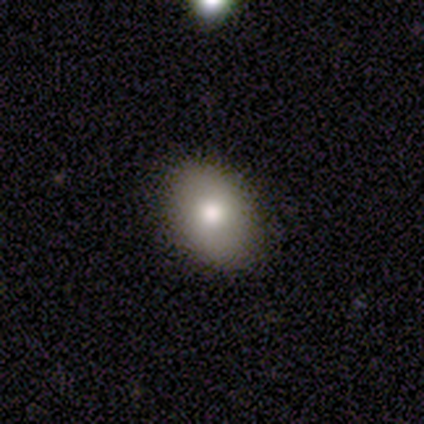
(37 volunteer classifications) Smooth or featured?
  - smooth: 86% *
  - star or artifact: 8%
  - featured or disk: 5%
How rounded?
  - in between: 75% *
  - round: 25%
  - cigar-shaped: 0%
Merging?
  - none: 91% *
  - minor disturbance: 9%
  - major disturbance: 0%
  - merger: 0%